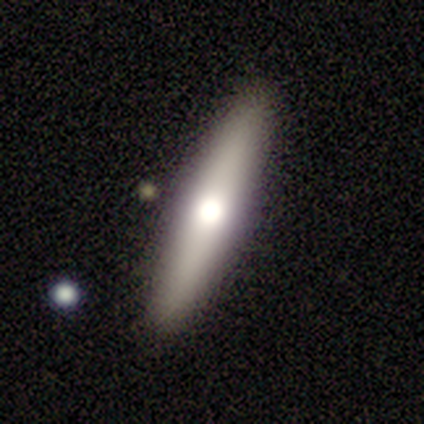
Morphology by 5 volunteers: A smooth galaxy with no disk features (60%) that is cigar-shaped (67%). Merging: none (80%).